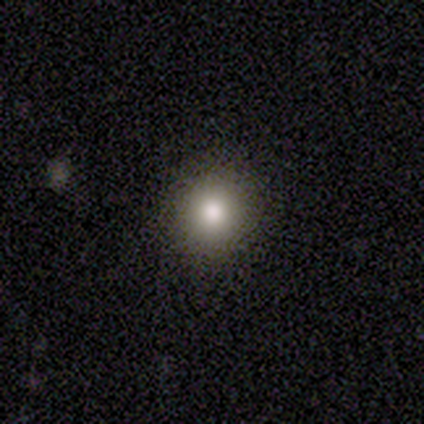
Smooth or featured? smooth (80%)
How rounded? round (100%)
Merging? none (75%)